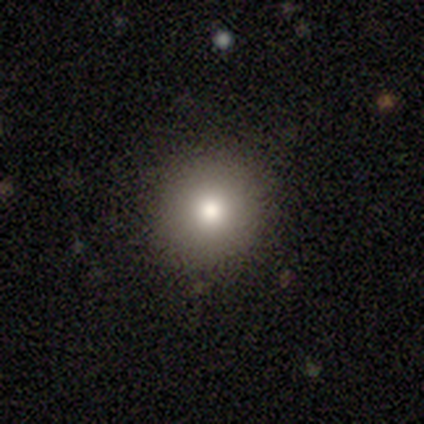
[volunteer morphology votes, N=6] type=smooth (100%); roundness=round (100%); merging=none (100%).